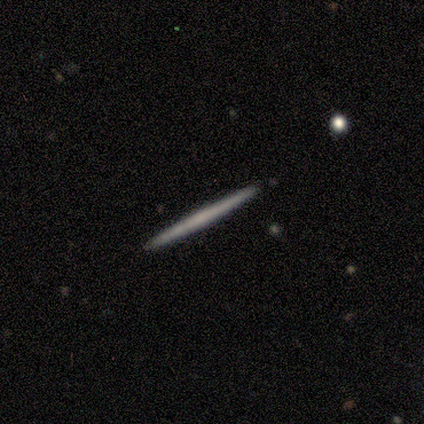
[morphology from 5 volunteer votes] This is clearly a featured or disk galaxy (80%). It is clearly viewed edge-on (100%). Edge-on bulge: likely none (75%). Merging: clearly none (100%).